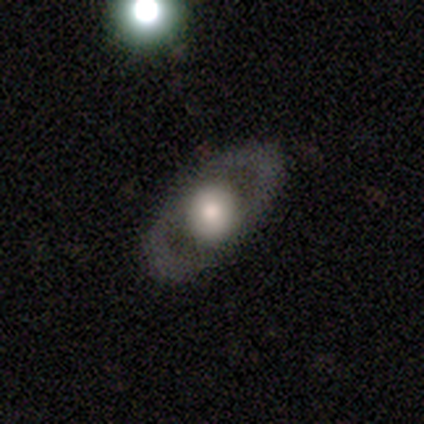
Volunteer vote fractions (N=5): Smooth or featured? smooth (60%)
How rounded? round (100%)
Merging? none (100%)